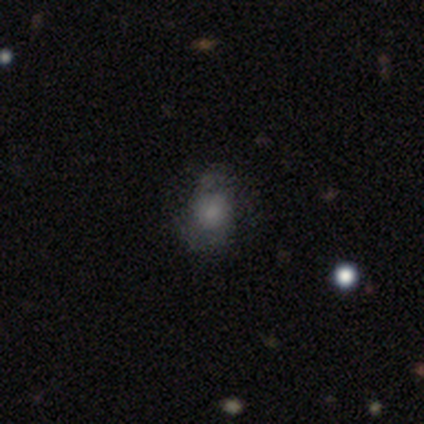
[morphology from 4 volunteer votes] Overall: smooth (100%). How rounded: in between (75%). Merging: none (50%, tied with minor disturbance).